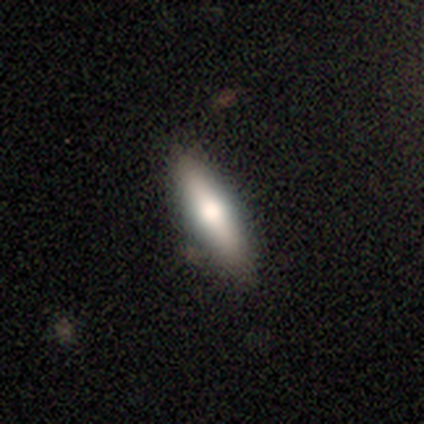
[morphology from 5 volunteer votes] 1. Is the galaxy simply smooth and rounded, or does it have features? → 60% smooth, 40% featured or disk, 0% star or artifact.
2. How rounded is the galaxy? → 67% cigar-shaped, 33% in between, 0% round.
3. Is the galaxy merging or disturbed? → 100% none, 0% minor disturbance, 0% major disturbance, 0% merger.